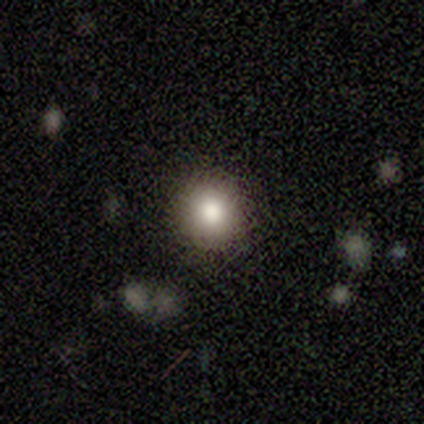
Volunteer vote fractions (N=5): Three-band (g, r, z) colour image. It shows a smooth galaxy with no disk features (100%) that is round (100%). Merging: none (100%).